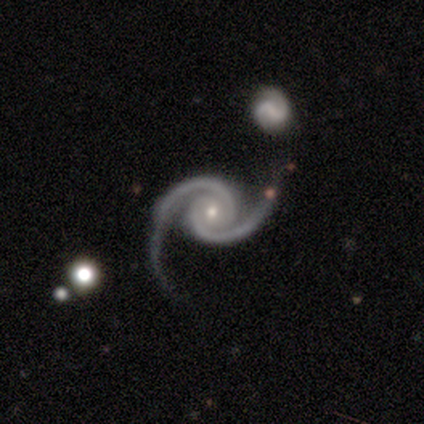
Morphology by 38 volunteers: This is clearly a featured or disk galaxy (97%). It is clearly not viewed edge-on (97%). Bar: likely no (61%). Spiral arm pattern: clearly yes (100%). Spiral arm count: clearly 2 (94%). Spiral winding: possibly tight (47%). Central bulge: likely small (61%). Merging: likely none (61%).